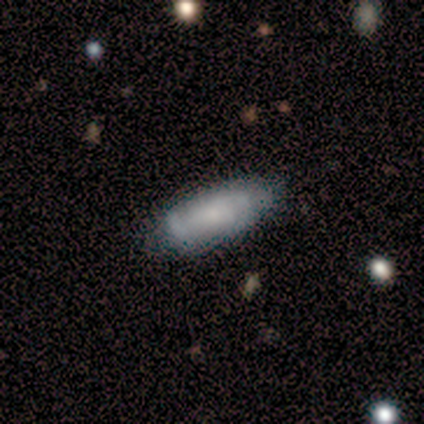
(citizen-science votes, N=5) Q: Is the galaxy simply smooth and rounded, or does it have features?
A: smooth — 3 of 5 (60%).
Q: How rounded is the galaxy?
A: in between — 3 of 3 (100%).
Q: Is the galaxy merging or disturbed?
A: none — 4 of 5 (80%).